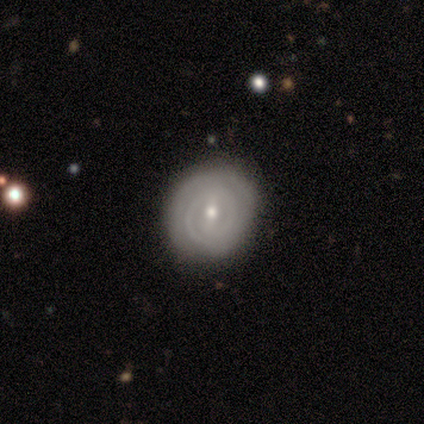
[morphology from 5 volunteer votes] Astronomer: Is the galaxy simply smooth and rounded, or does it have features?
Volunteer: featured or disk — 100%.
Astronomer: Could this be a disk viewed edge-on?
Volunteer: no — 100%.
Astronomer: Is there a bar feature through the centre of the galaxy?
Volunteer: strong — 40%, tied with no at 40%.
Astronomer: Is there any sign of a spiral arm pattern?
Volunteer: yes — 100%.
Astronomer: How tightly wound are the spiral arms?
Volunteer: tight — 80%.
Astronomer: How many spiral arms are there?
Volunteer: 2 — 60%.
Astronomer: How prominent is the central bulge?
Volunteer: small — 60% (runner-up: moderate, 40%).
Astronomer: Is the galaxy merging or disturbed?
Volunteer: none — 80%.